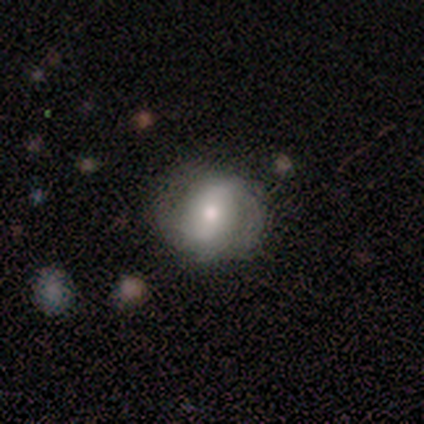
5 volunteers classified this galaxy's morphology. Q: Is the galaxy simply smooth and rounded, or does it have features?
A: featured or disk — 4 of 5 (80%).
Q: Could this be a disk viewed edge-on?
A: no — 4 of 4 (100%).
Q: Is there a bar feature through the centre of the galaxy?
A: weak — 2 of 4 (50%).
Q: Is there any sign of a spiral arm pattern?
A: yes — 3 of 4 (75%).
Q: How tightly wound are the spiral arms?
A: tight — 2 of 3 (67%).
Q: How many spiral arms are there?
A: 2 — 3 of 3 (100%).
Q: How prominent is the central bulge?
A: small — 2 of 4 (50%).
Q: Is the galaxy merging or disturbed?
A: none — 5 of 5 (100%).